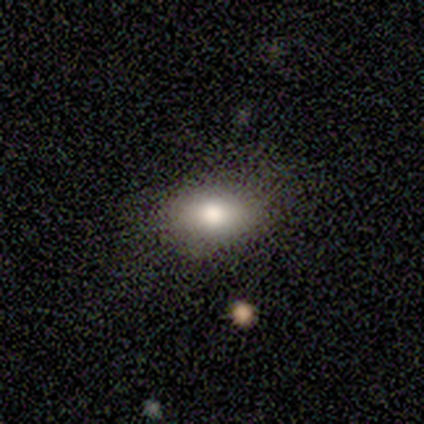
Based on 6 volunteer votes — Overall: smooth (83%). How rounded: in between (100%). Merging: none (100%).